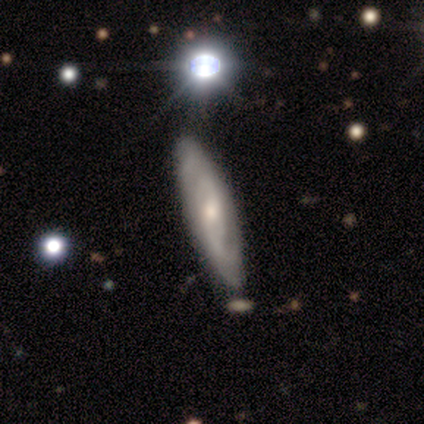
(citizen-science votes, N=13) This is likely a featured or disk galaxy (77%). It is clearly not viewed edge-on (90%). Bar: clearly no (89%). Spiral arm pattern: clearly yes (89%). Spiral arm count: likely can't tell (62%). Spiral winding: likely tight (75%). Central bulge: possibly moderate (56%). Merging: clearly none (85%).